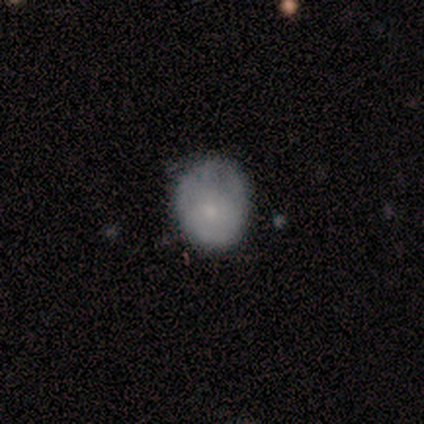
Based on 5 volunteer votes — Volunteers were most divided on "bulge size" (3-way tie): dominant: 33%, moderate: 33%, small: 33%, large: 0%, none: 0%. Remaining: edge-on disk — no (100%); bar — no (100%); spiral arms — no (67%); smooth or featured — featured or disk (60%); merging — minor disturbance (40%).